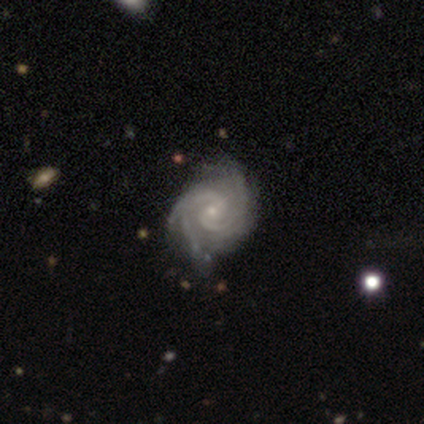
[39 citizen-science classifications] featured or disk 92%, smooth 5%, star or artifact 3%. Down the decision tree: edge-on disk — no (97%); bar — weak (49%); spiral arms — yes (100%); spiral arm count — 2 (34%); spiral winding — tight (63%); bulge size — small (71%); merging — none (76%).